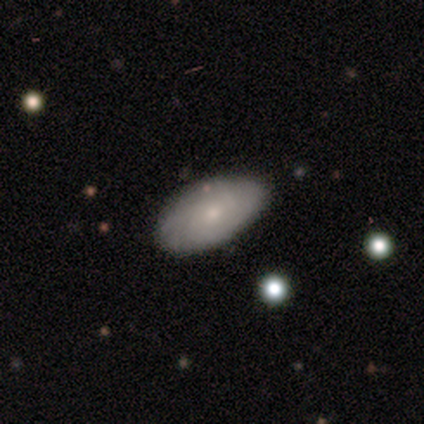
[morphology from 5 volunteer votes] Smooth or featured?
  - smooth: 60% *
  - featured or disk: 20%
  - star or artifact: 20%
How rounded?
  - in between: 100% *
  - round: 0%
  - cigar-shaped: 0%
Merging?
  - none: 75% *
  - minor disturbance: 25%
  - major disturbance: 0%
  - merger: 0%